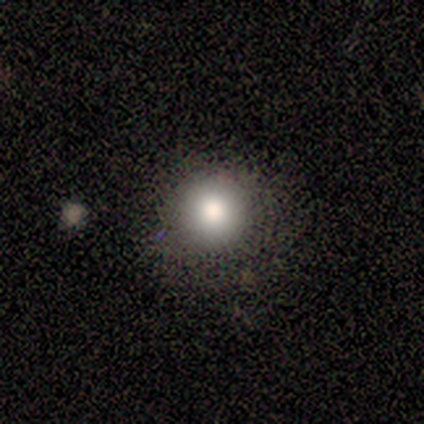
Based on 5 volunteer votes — smooth-or-featured: smooth: 80% | featured or disk: 20% | star or artifact: 0%
  how-rounded: round: 100% | in between: 0% | cigar-shaped: 0%
  merging: none: 80% | minor disturbance: 20% | major disturbance: 0% | merger: 0%